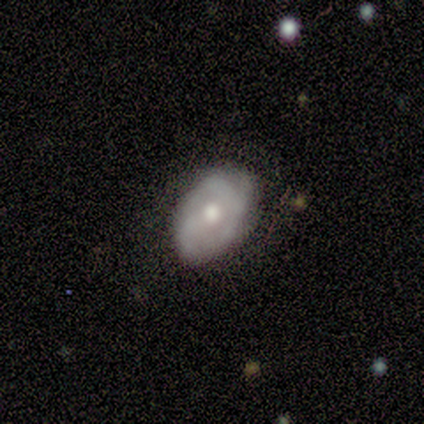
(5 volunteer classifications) Q: Smooth or featured?
A: featured or disk (100%)
Q: Edge-on disk?
A: no (100%)
Q: Bar?
A: no (80%); runner-up: weak (20%)
Q: Spiral arms?
A: yes (100%)
Q: Spiral winding?
A: tight (60%); runner-up: loose (40%)
Q: Spiral arm count?
A: 2 (40%); tied with: 3 (40%)
Q: Bulge size?
A: moderate (100%)
Q: Merging?
A: none (80%); runner-up: minor disturbance (20%)